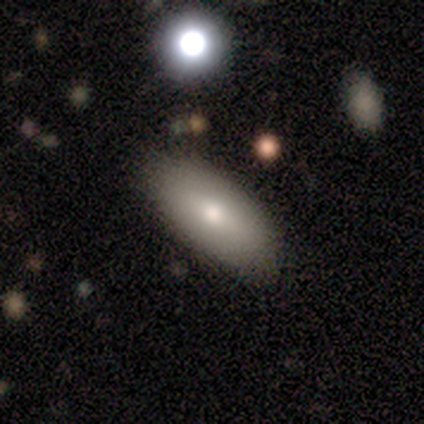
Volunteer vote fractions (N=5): This appears to be a smooth galaxy with no disk features (60%) that is in between round and cigar-shaped (67%). Merging: none (80%).